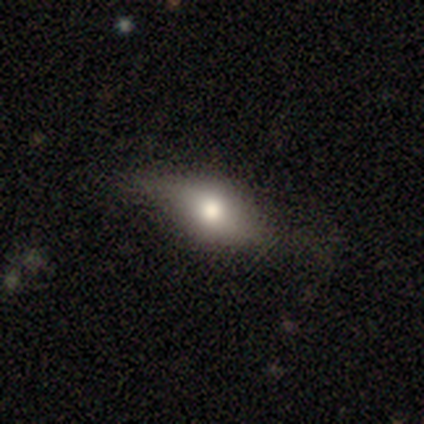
Volunteers were most divided on "smooth or featured": smooth: 60%, featured or disk: 40%, star or artifact: 0%. More confident: how rounded — in between (100%); merging — none (80%).